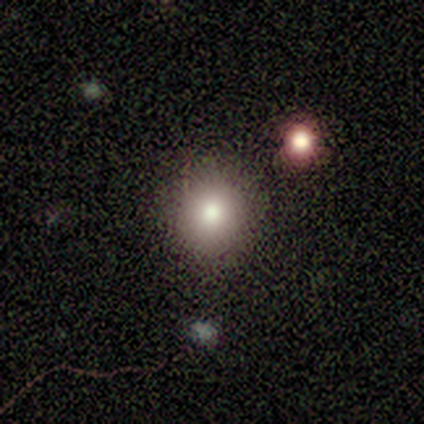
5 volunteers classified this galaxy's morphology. A smooth galaxy with no disk features (100%) that is round (100%).

Vote fractions:
- Smooth or featured? smooth: 100% / featured or disk: 0% / star or artifact: 0%
- How rounded? round: 100% / in between: 0% / cigar-shaped: 0%
- Merging? none: 100% / minor disturbance: 0% / major disturbance: 0% / merger: 0%